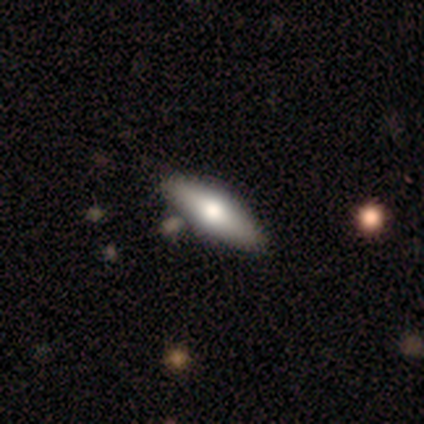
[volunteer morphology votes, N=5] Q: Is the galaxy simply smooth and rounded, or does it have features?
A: smooth — 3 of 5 (60%).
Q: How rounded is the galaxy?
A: cigar-shaped — 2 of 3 (67%).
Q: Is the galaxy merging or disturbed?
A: none — 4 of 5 (80%).